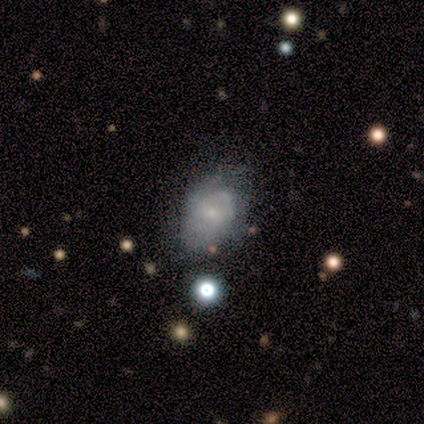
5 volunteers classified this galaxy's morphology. This is likely a featured or disk galaxy (60%). It is clearly not viewed edge-on (100%). Bar: likely weak (67%). Spiral arm pattern: clearly yes (100%). Spiral arm count: likely 1 (67%). Spiral winding: clearly medium (100%). Central bulge: clearly small (100%). Merging: likely none (60%).